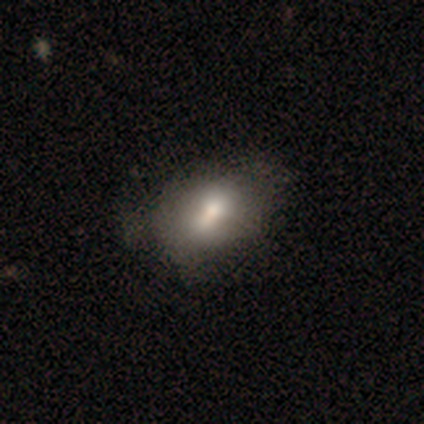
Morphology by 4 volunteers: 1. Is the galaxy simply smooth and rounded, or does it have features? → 75% smooth, 25% featured or disk, 0% star or artifact.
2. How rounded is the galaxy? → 67% in between, 33% round, 0% cigar-shaped.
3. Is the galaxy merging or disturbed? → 75% none, 25% minor disturbance, 0% major disturbance, 0% merger.